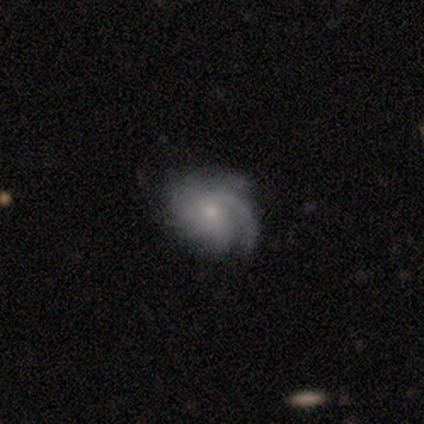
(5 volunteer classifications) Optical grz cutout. It shows a featured or disk galaxy (100%) with no bar (60%), 1 (60%) tight (60%) spiral arms (100%) and a small central bulge (80%). Merging: none (80%).